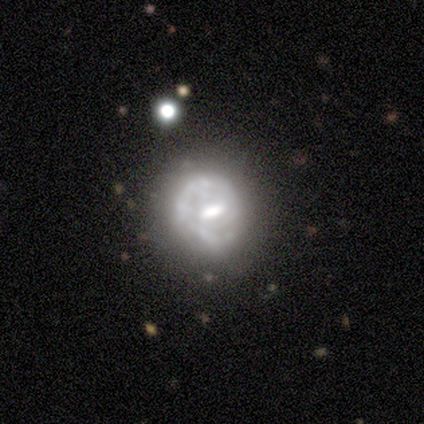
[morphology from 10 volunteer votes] Smooth or featured? featured or disk (80%)
Edge-on disk? no (100%)
Bar? weak (62%)
Spiral arms? yes (62%)
Spiral winding? medium (60%)
Spiral arm count? 2 (80%)
Bulge size? moderate (62%)
Merging? none (56%)